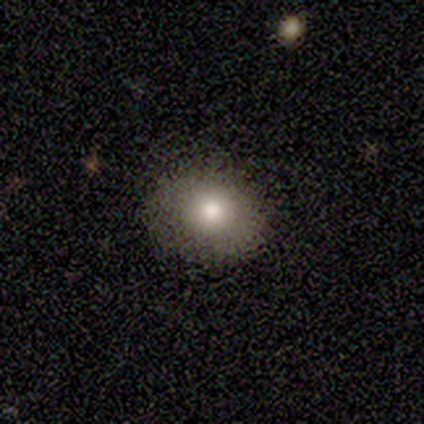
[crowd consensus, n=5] This appears to be a smooth galaxy with no disk features (40%, tied with featured or disk) that is in between round and cigar-shaped (100%). Merging: none (75%).